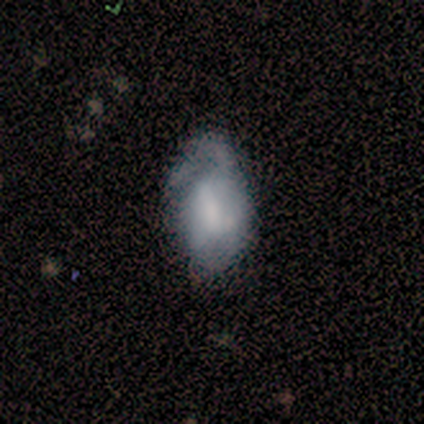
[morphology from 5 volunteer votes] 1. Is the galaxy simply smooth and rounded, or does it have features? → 80% featured or disk, 20% smooth, 0% star or artifact.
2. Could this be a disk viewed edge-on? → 100% no, 0% yes.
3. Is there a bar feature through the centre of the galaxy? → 50% weak (tied), 50% no (tied), 0% strong.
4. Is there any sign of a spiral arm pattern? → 50% yes (tied), 50% no (tied).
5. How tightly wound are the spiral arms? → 50% tight (tied), 50% loose (tied), 0% medium.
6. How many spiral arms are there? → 50% 1 (tied), 50% 3 (tied), 0% 2, 0% 4, 0% more than 4, 0% can't tell.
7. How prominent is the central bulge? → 50% small, 25% moderate, 25% none, 0% dominant, 0% large.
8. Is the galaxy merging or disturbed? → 40% none (tied), 40% minor disturbance (tied), 20% major disturbance, 0% merger.